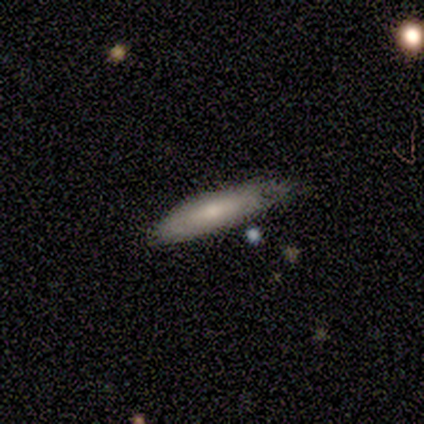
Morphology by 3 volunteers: This appears to be a smooth galaxy with no disk features (67%) that is in between round and cigar-shaped (100%). Merging: none (67%).